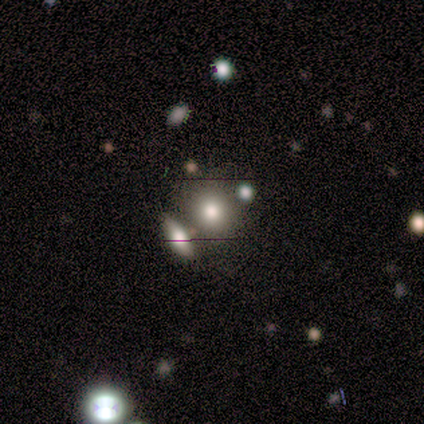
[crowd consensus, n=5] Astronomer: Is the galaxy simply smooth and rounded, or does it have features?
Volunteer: smooth — 100%.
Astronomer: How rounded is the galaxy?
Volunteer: round — 80%.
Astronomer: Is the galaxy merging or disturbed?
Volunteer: none — 40% (runner-up: minor disturbance, 20%).